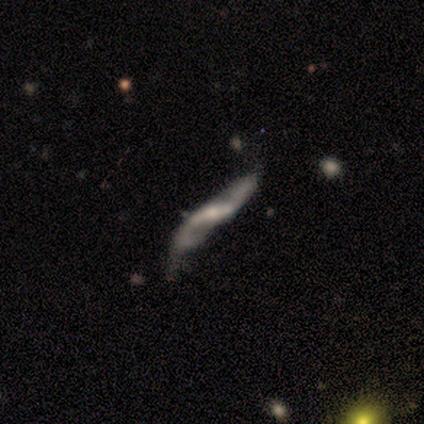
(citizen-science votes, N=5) Smooth or featured? 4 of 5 (80%) said featured or disk. Edge-on disk? 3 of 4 (75%) said no. Bar? 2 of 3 (67%) said strong. Spiral arms? 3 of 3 (100%) said yes. Spiral winding? 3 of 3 (100%) said loose. Spiral arm count? 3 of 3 (100%) said 2. Bulge size? 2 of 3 (67%) said none. Merging? 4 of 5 (80%) said none.